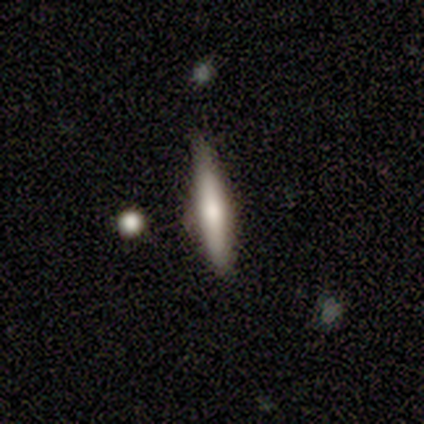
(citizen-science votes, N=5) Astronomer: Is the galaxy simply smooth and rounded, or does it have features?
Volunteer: featured or disk — 60% (runner-up: smooth, 40%).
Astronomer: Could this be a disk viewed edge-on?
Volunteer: yes — 100%.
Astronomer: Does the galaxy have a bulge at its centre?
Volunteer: boxy — 33%, tied with none and rounded at 33%.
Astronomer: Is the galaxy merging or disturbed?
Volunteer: none — 80%.